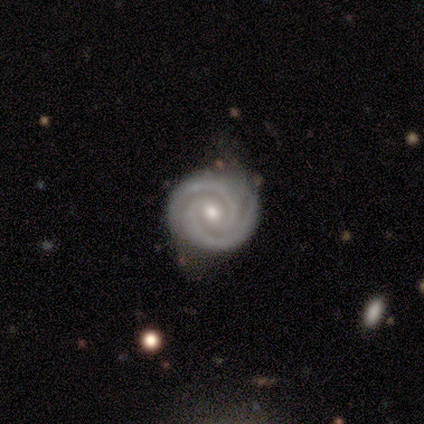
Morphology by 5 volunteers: Smooth or featured?
  - featured or disk: 100% *
  - smooth: 0%
  - star or artifact: 0%
Edge-on disk?
  - no: 100% *
  - yes: 0%
Bar?
  - no: 60% *
  - weak: 40%
  - strong: 0%
Spiral arms?
  - yes: 100% *
  - no: 0%
Spiral winding?
  - tight: 100% *
  - medium: 0%
  - loose: 0%
Spiral arm count?
  - 2: 60% *
  - 3: 20%
  - can't tell: 20%
  - 1: 0%
  - 4: 0%
  - more than 4: 0%
Bulge size?
  - moderate: 60% *
  - small: 40%
  - dominant: 0%
  - large: 0%
  - none: 0%
Merging?
  - none: 100% *
  - minor disturbance: 0%
  - major disturbance: 0%
  - merger: 0%